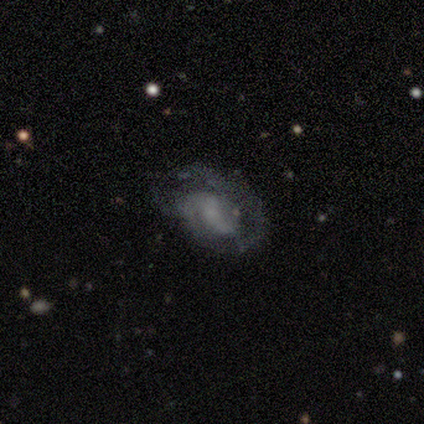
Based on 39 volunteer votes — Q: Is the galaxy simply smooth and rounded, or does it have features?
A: featured or disk — 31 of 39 (79%).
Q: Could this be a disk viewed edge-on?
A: no — 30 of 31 (97%).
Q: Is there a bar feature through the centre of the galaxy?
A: weak — 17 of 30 (57%).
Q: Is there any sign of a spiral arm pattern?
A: yes — 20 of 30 (67%).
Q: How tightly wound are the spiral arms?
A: tight — 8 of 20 (40%, tied with medium).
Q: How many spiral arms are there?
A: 2 — 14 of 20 (70%).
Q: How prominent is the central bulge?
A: none — 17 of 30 (57%).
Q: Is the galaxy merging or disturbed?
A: none — 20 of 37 (54%).